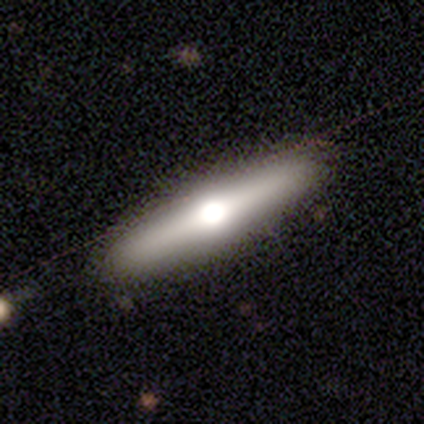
Q: Smooth or featured?
A: featured or disk (67%); runner-up: smooth (33%)
Q: Edge-on disk?
A: yes (100%)
Q: Edge-on bulge?
A: rounded (100%)
Q: Merging?
A: none (100%)